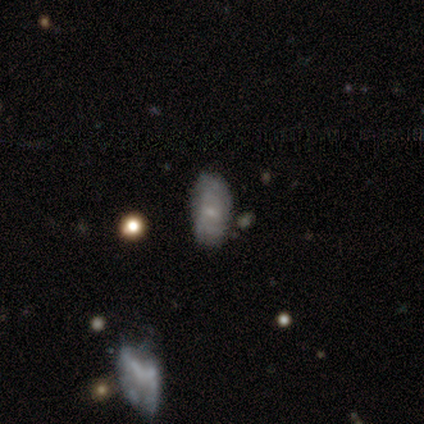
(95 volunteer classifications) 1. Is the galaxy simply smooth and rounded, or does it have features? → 47% featured or disk, 42% smooth, 11% star or artifact.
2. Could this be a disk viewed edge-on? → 96% no, 4% yes.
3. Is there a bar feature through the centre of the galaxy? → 74% no, 26% weak, 0% strong.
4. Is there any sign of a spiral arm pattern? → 56% yes, 44% no.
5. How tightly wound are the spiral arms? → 67% tight, 25% medium, 8% loose.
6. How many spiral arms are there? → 62% can't tell, 33% 2, 4% 3, 0% 1, 0% 4, 0% more than 4.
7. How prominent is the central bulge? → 81% small, 12% none, 7% moderate, 0% dominant, 0% large.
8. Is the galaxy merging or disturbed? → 68% none, 21% minor disturbance, 9% major disturbance, 1% merger.